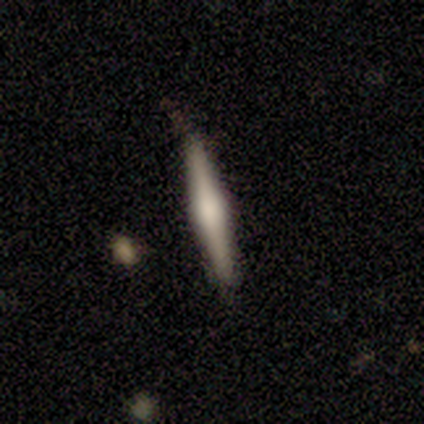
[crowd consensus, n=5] This appears to be a featured or disk galaxy (60%) viewed edge-on (100%) with a rounded central bulge (100%). Merging: none (75%).